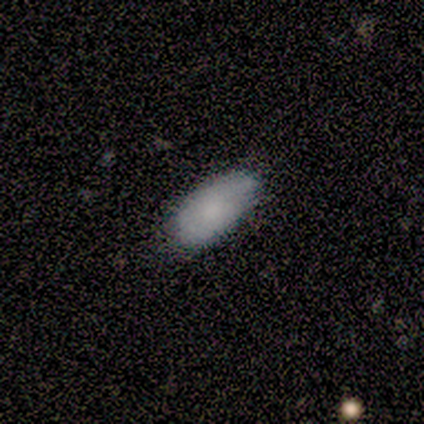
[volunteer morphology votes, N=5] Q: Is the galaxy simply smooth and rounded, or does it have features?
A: smooth — 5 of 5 (100%).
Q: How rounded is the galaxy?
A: in between — 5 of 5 (100%).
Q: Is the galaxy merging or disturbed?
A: minor disturbance — 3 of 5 (60%).